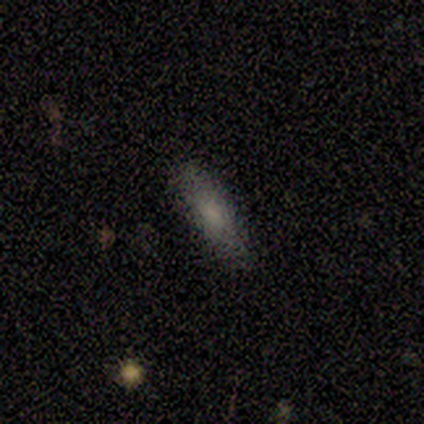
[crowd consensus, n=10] Overall: smooth (80%). How rounded: cigar-shaped (75%). Merging: none (88%).